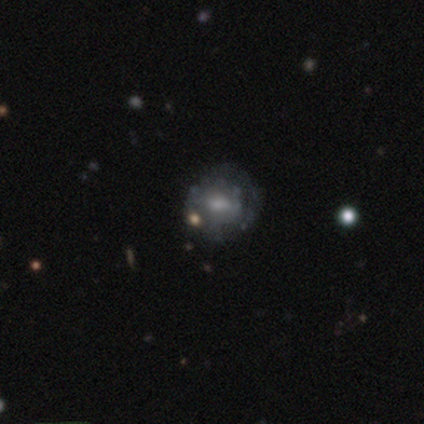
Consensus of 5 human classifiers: Q: Smooth or featured?
A: featured or disk (60%); runner-up: smooth (40%)
Q: Edge-on disk?
A: no (100%)
Q: Bar?
A: no (67%); runner-up: weak (33%)
Q: Spiral arms?
A: no (100%)
Q: Bulge size?
A: small (67%); runner-up: moderate (33%)
Q: Merging?
A: none (100%)